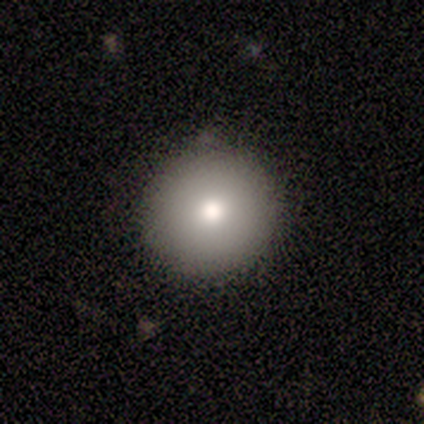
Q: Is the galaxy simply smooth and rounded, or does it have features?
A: smooth — 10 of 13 (77%).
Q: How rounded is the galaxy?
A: round — 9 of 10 (90%).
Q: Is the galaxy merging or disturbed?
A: none — 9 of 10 (90%).